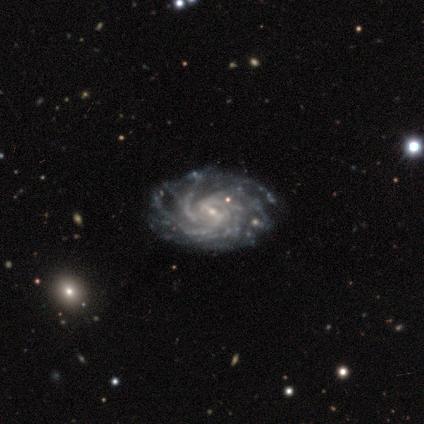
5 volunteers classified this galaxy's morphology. Overall: featured or disk (100%). Edge-on disk: no (100%). Bar: strong (40%, tied with weak). Spiral arms: yes (100%). Spiral arm count: more than 4 (40%, tied with can't tell). Spiral winding: tight (60%; medium 40%). Bulge size: small (60%; moderate 40%). Merging: none (80%).